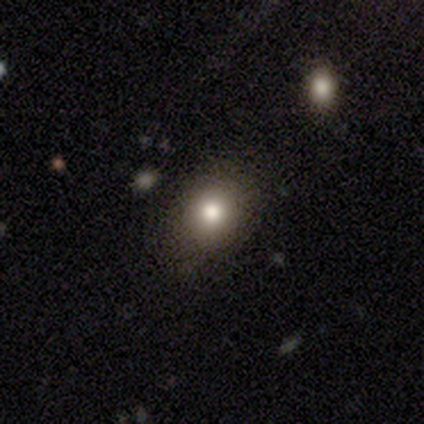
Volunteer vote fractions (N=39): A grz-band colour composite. It shows a smooth galaxy with no disk features (79%) that is round (77%). Merging: none (91%).